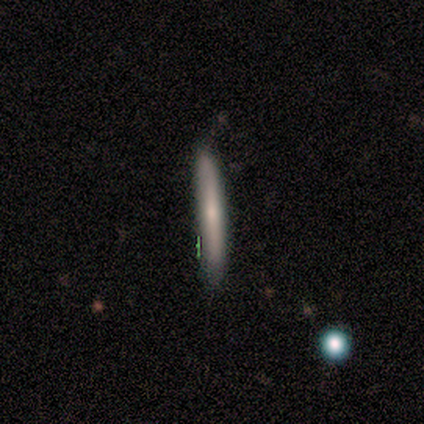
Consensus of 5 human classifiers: Overall: smooth (100%). How rounded: cigar-shaped (100%). Merging: none (100%).